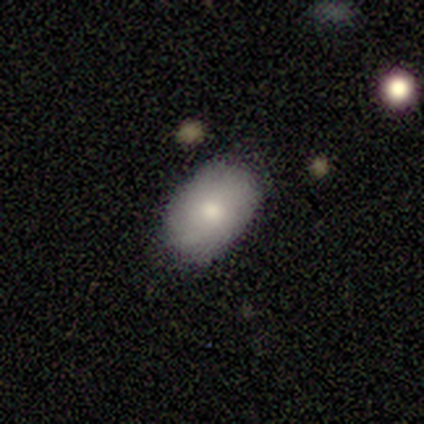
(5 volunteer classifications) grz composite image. It shows a smooth galaxy with no disk features (80%) that is in between round and cigar-shaped (100%). Merging: none (100%).